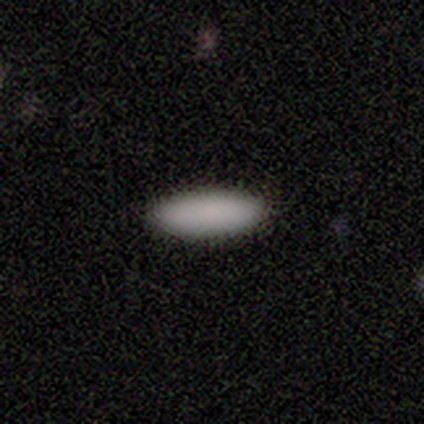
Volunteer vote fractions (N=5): Smooth or featured: smooth — 100%
How rounded: cigar-shaped — 60% (in between — 40%)
Merging: none — 100%